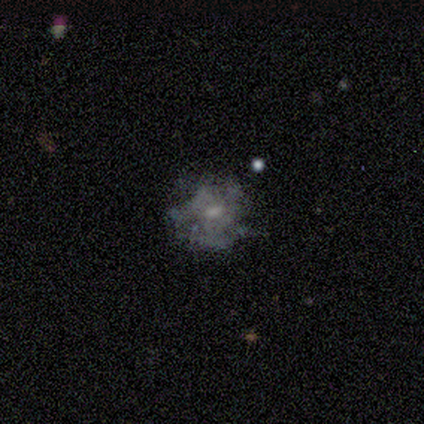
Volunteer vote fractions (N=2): smooth-or-featured: smooth: 50% (tied) | featured or disk: 50% (tied) | star or artifact: 0%
  how-rounded: in between: 100% | round: 0% | cigar-shaped: 0%
  merging: none: 100% | minor disturbance: 0% | major disturbance: 0% | merger: 0%